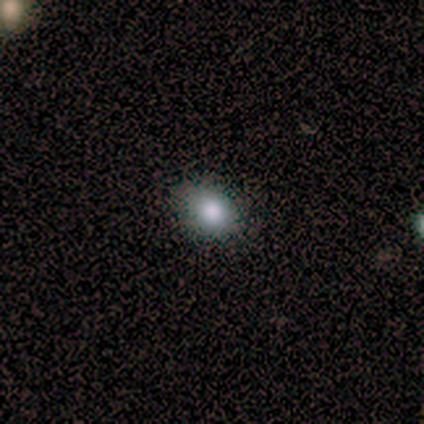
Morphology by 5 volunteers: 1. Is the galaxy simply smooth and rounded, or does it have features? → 100% smooth, 0% featured or disk, 0% star or artifact.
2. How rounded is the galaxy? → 80% round, 20% in between, 0% cigar-shaped.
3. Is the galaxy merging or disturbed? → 100% none, 0% minor disturbance, 0% major disturbance, 0% merger.